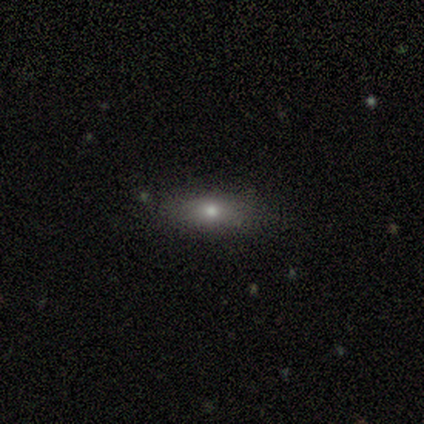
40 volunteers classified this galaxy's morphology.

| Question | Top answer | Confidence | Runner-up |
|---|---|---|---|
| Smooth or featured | smooth | 72% | featured or disk (15%) |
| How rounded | in between | 66% | cigar-shaped (28%) |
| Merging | none | 86% | minor disturbance (9%) |